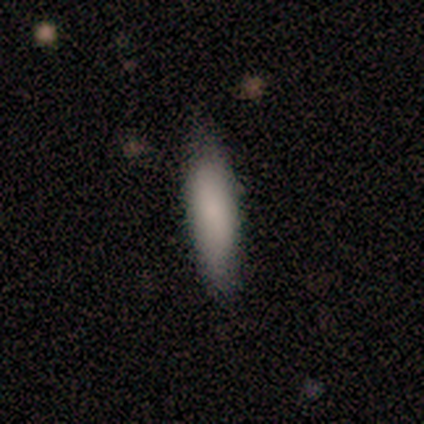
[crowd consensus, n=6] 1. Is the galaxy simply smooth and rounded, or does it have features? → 100% smooth, 0% featured or disk, 0% star or artifact.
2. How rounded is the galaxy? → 50% in between (tied), 50% cigar-shaped (tied), 0% round.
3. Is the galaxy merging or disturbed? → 83% none, 17% minor disturbance, 0% major disturbance, 0% merger.